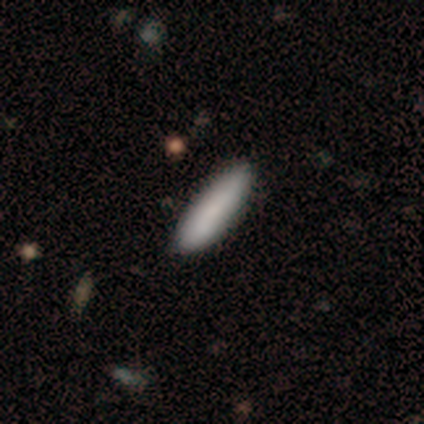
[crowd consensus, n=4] Volunteers were most divided on "how rounded" (2-way tie): in between: 50%, cigar-shaped: 50%, round: 0%. More confident: smooth or featured — smooth (100%); merging — none (100%).